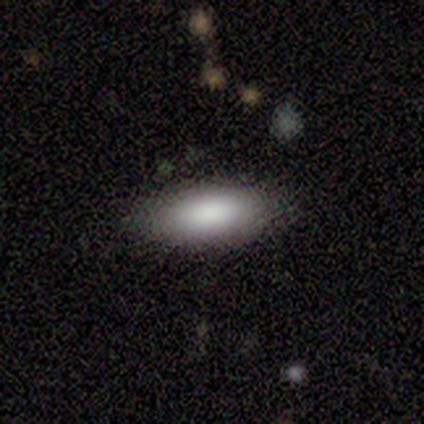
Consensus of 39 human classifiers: This is likely a smooth galaxy (79%). How rounded: likely in between (77%). Merging: clearly none (83%).